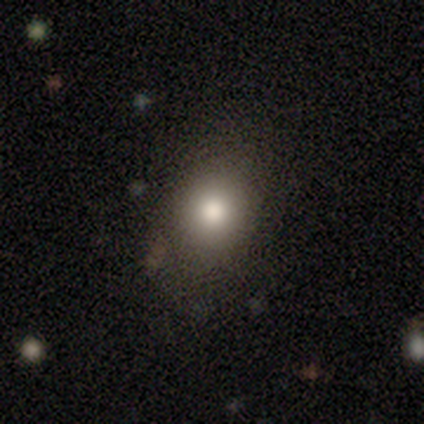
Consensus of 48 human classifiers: Overall: smooth (79%). How rounded: round (68%; in between 32%). Merging: none (78%).